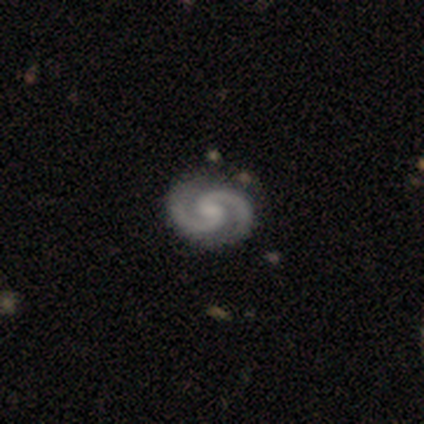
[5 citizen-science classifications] smooth-or-featured: featured or disk: 100% | smooth: 0% | star or artifact: 0%
  disk-edge-on: no: 100% | yes: 0%
    bar: weak: 40% (tied) | no: 40% (tied) | strong: 20%
    has-spiral-arms: yes: 100% | no: 0%
      spiral-winding: medium: 60% | tight: 40% | loose: 0%
      spiral-arm-count: 2: 100% | 1: 0% | 3: 0% | 4: 0% | more than 4: 0% | can't tell: 0%
    bulge-size: moderate: 40% (tied) | none: 40% (tied) | small: 20% | dominant: 0% | large: 0%
  merging: none: 80% | minor disturbance: 20% | major disturbance: 0% | merger: 0%